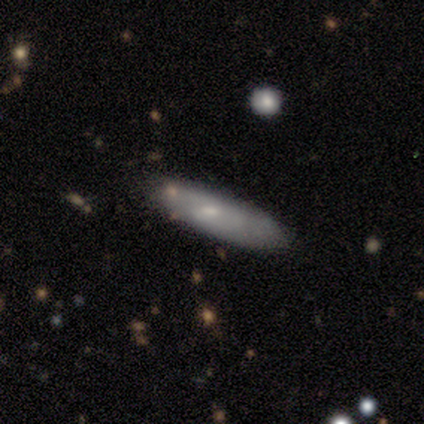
Smooth or featured?
  - smooth: 85% *
  - featured or disk: 15%
  - star or artifact: 0%
How rounded?
  - cigar-shaped: 67% *
  - in between: 30%
  - round: 3%
Merging?
  - none: 82% *
  - minor disturbance: 10%
  - major disturbance: 5%
  - merger: 3%